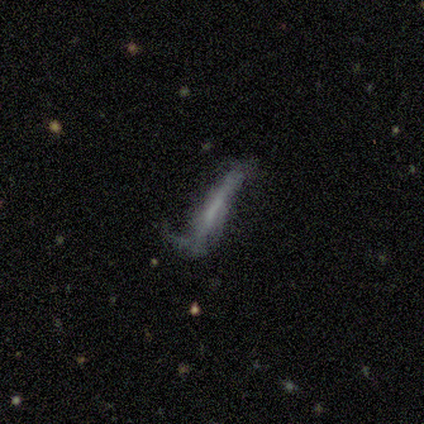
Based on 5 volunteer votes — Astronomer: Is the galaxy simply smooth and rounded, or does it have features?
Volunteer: smooth — 60% (runner-up: featured or disk, 40%).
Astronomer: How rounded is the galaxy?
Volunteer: cigar-shaped — 100%.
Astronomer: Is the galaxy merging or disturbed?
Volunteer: minor disturbance — 40%, tied with major disturbance at 40%.